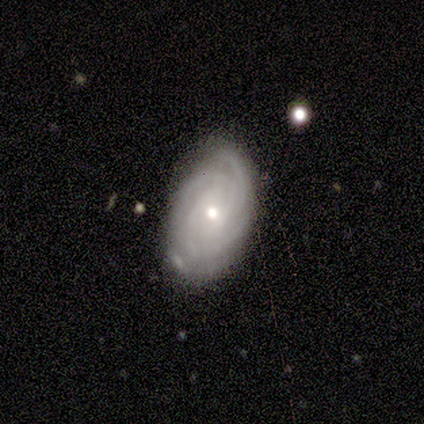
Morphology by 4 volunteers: Smooth or featured: featured or disk — 75% (smooth — 25%)
Edge-on disk: no — 100%
Bar: weak — 100%
Spiral arms: yes — 100%
Spiral winding: tight — 100%
Spiral arm count: 1 — 33% (tied with 2 — 33%; can't tell — 33%)
Bulge size: large — 33% (tied with moderate — 33%; small — 33%)
Merging: minor disturbance — 75% (major disturbance — 25%)